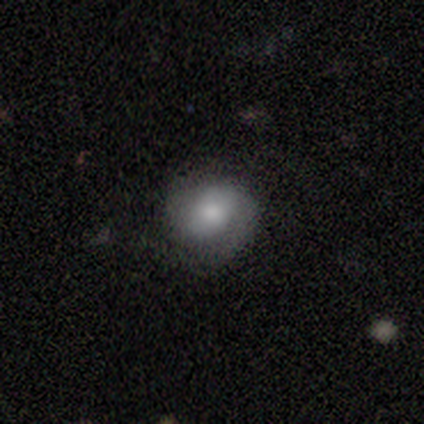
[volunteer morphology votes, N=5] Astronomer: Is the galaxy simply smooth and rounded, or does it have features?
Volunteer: smooth — 60% (runner-up: featured or disk, 40%).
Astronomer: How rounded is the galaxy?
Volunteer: round — 67%.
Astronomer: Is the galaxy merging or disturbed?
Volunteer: none — 40%, tied with minor disturbance at 40%.